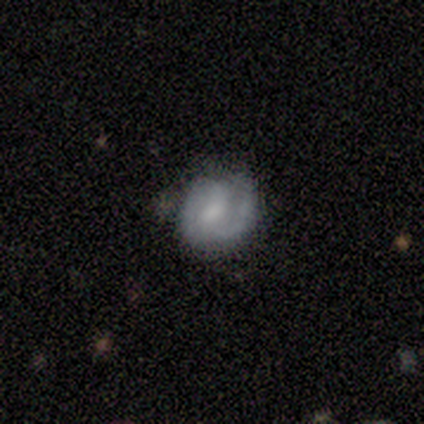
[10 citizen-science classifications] Morphology: type=featured or disk (80%); edge-on=no (100%); bar=weak (50%); spiral arms=yes (50%, tied with no); winding=tight (50%); arm count=2 (100%); bulge=moderate (50%); merging=none (50%).